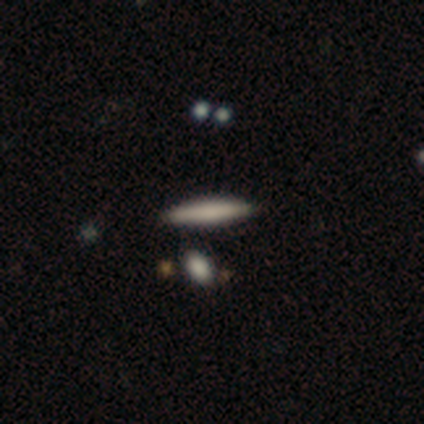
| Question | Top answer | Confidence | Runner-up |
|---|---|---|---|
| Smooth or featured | smooth | 80% | star or artifact (20%) |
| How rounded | cigar-shaped | 100% | — |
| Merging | none | 100% | — |